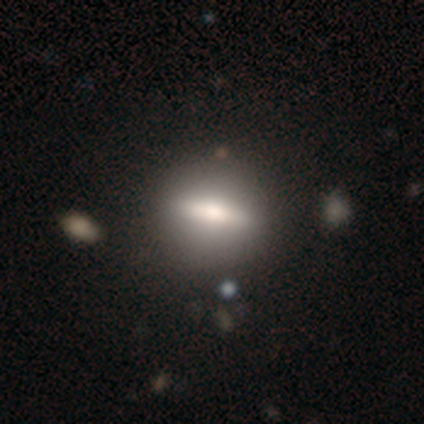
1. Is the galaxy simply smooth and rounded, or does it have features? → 60% smooth, 40% featured or disk, 0% star or artifact.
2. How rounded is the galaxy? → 67% round, 33% in between, 0% cigar-shaped.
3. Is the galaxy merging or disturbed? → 80% none, 20% minor disturbance, 0% major disturbance, 0% merger.